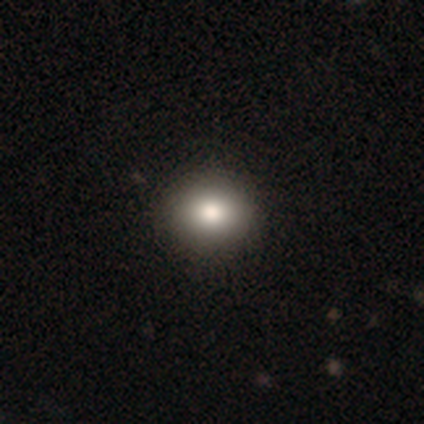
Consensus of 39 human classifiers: This is clearly a smooth galaxy (82%). How rounded: likely round (66%). Merging: clearly none (81%).